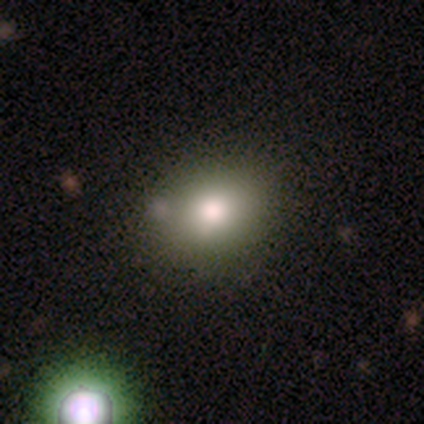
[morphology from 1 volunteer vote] smooth 100%, featured or disk 0%, star or artifact 0%. Down the decision tree: how rounded — round (100%); merging — none (100%).